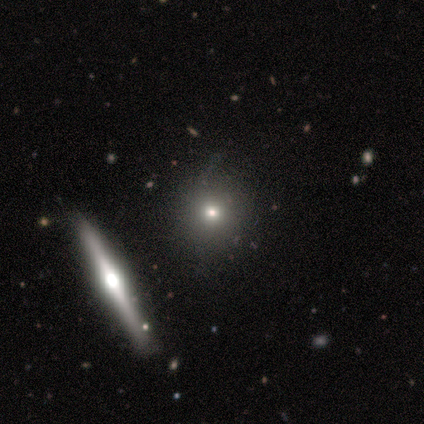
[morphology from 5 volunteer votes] Overall: star or artifact (60%; smooth 40%).